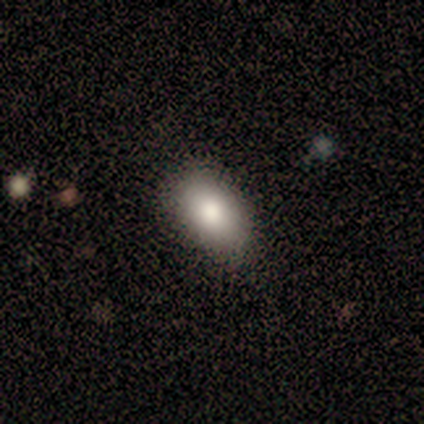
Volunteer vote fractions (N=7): A smooth galaxy with no disk features (86%) that is in between round and cigar-shaped (100%).

Vote fractions:
- Smooth or featured? smooth: 86% / star or artifact: 14% / featured or disk: 0%
- How rounded? in between: 100% / round: 0% / cigar-shaped: 0%
- Merging? none: 67% / minor disturbance: 33% / major disturbance: 0% / merger: 0%